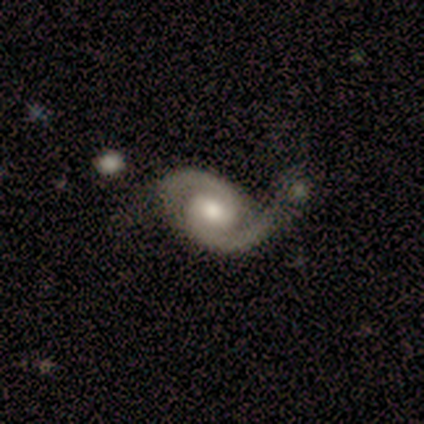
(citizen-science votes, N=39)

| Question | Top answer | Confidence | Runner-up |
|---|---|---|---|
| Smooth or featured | featured or disk | 95% | smooth (3%) |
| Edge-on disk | no | 100% | — |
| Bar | weak | 57% | no (27%) |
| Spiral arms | yes | 95% | no (5%) |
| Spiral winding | medium | 51% | tight (37%) |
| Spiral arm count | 2 | 97% | 1 (3%) |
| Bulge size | moderate | 78% | small (14%) |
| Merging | none | 53% | minor disturbance (24%) |